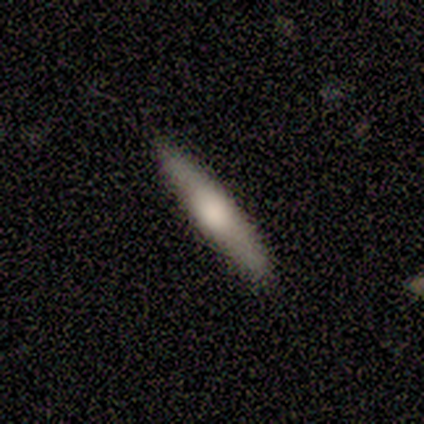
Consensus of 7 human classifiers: This appears to be a smooth galaxy with no disk features (86%) that is cigar-shaped (100%). Merging: none (100%).